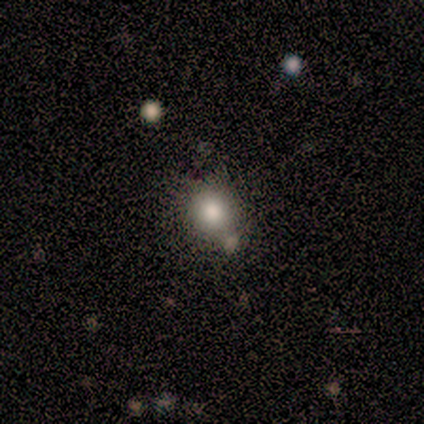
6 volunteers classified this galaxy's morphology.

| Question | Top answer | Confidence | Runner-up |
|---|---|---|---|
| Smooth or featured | smooth | 83% | featured or disk (17%) |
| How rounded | round | 100% | — |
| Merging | none | 67% | minor disturbance (17%) |